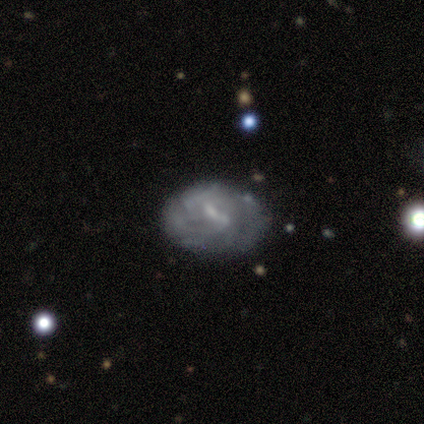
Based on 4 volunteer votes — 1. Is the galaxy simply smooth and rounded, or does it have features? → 75% smooth, 25% featured or disk, 0% star or artifact.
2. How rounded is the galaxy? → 67% in between, 33% round, 0% cigar-shaped.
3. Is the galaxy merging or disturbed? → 50% none, 25% minor disturbance, 25% major disturbance, 0% merger.